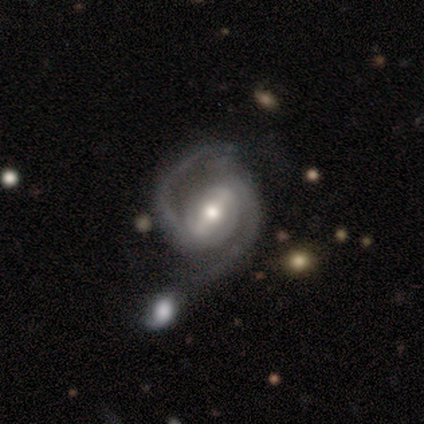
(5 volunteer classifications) This appears to be a featured or disk galaxy (100%) with a strong bar (60%), 2 (100%) medium (80%) spiral arms (100%) and a moderate central bulge (60%). Merging: none (60%).